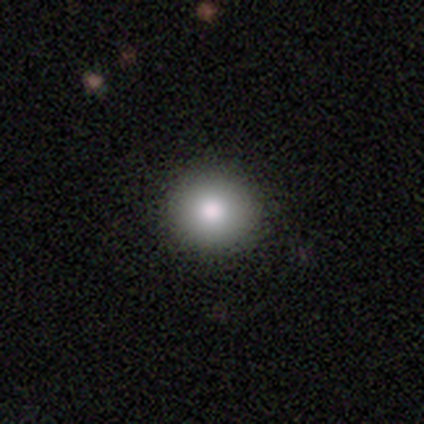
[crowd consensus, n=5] smooth 80%, featured or disk 20%, star or artifact 0%. Down the decision tree: how rounded — round (100%); merging — none (80%).